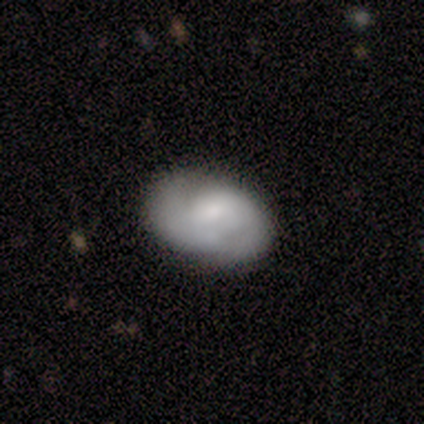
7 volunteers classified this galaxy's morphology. Smooth or featured? 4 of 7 (57%) said featured or disk. Edge-on disk? 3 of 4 (75%) said no. Bar? 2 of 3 (67%) said no. Spiral arms? 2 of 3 (67%) said yes. Spiral winding? 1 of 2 (50%, tied with loose) said tight. Spiral arm count? 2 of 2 (100%) said 2. Bulge size? 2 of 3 (67%) said small. Merging? 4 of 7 (57%) said none.